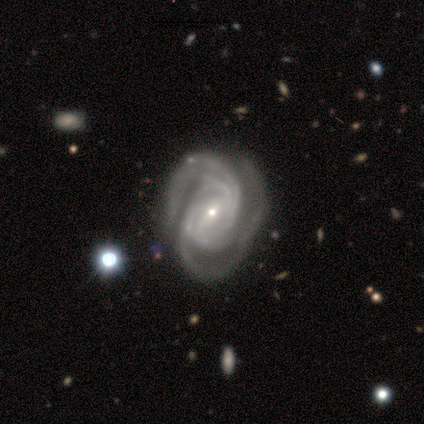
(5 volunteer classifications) smooth_or_featured: featured or disk (p=1.00)
disk_edge_on: no (p=1.00)
bar: weak (p=0.60) [alt: no p=0.40]
has_spiral_arms: yes (p=1.00)
spiral_winding: medium (p=0.80) [alt: tight p=0.20]
spiral_arm_count: 4 (p=0.40) [alt: 3 p=0.20]
bulge_size: small (p=0.60) [alt: large p=0.20]
merging: none (p=0.80) [alt: major disturbance p=0.20]